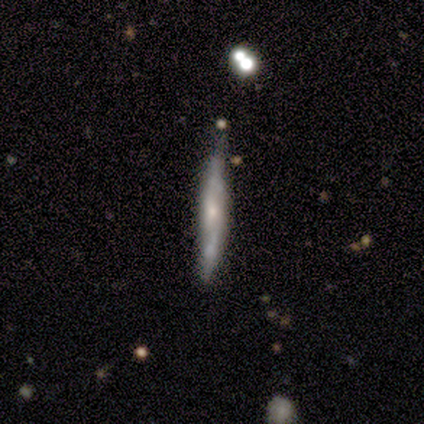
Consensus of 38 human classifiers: smooth-or-featured: featured or disk: 53% | smooth: 42% | star or artifact: 5%
  disk-edge-on: yes: 85% | no: 15%
    edge-on-bulge: rounded: 53% | none: 41% | boxy: 6%
  merging: none: 64% | minor disturbance: 19% | major disturbance: 14% | merger: 3%